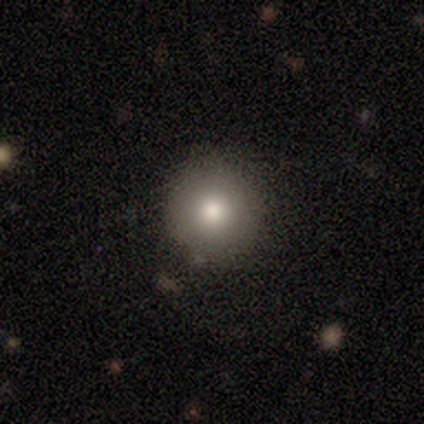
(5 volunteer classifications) smooth_or_featured: smooth (p=1.00)
how_rounded: round (p=1.00)
merging: none (p=1.00)